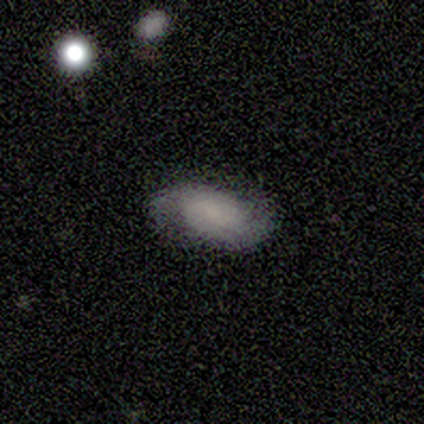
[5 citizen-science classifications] Overall: featured or disk (80%). Edge-on disk: no (100%). Bar: no (100%). Spiral arms: yes (100%). Spiral arm count: 2 (50%; 3 25%). Spiral winding: tight (75%). Bulge size: none (75%). Merging: none (80%).